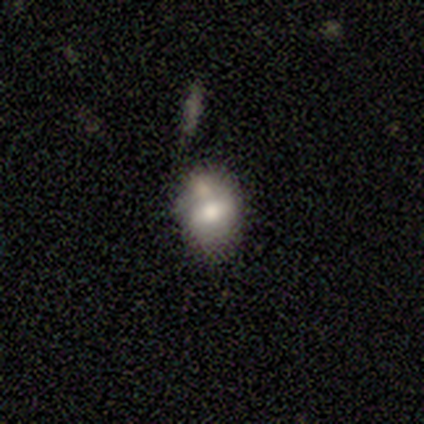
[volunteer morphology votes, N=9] Volunteers were most divided on "smooth or featured": featured or disk: 67%, smooth: 33%, star or artifact: 0%. More confident: bar — no (100%); spiral arms — no (100%); edge-on disk — no (83%); merging — none (67%); bulge size — moderate (60%).